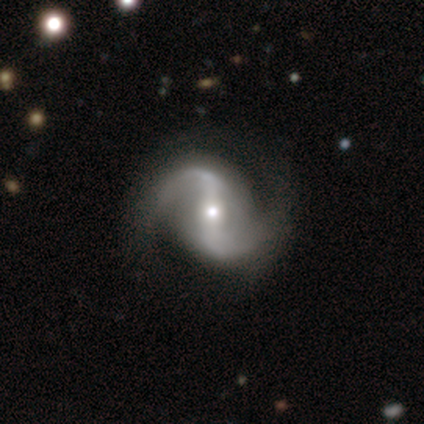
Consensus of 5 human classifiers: Morphology: type=featured or disk (60%); edge-on=no (100%); bar=strong (67%); spiral arms=yes (100%); winding=loose (67%); arm count=2 (100%); bulge=moderate (67%); merging=none (100%).